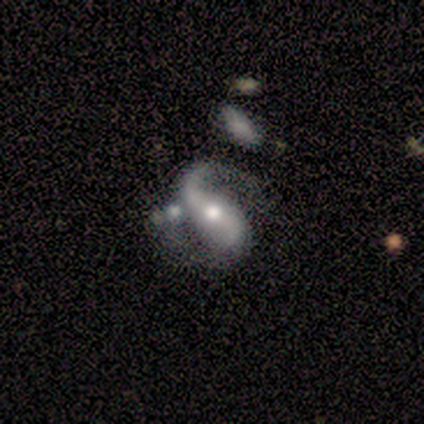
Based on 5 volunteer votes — Smooth or featured? featured or disk (100%)
Edge-on disk? no (100%)
Bar? no (60%)
Spiral arms? yes (100%)
Spiral winding? loose (80%)
Spiral arm count? 2 (80%)
Bulge size? moderate (80%)
Merging? none (80%)